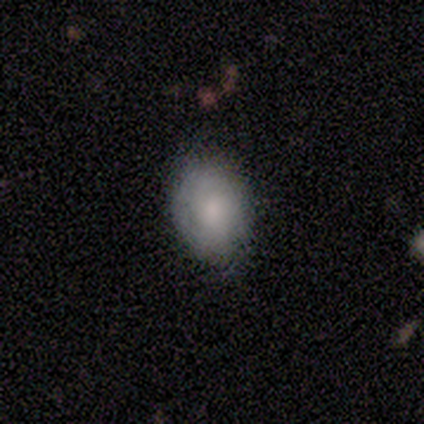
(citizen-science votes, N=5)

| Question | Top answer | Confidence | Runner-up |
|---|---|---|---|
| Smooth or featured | smooth | 80% | featured or disk (20%) |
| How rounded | in between | 100% | — |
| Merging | none | 80% | minor disturbance (20%) |